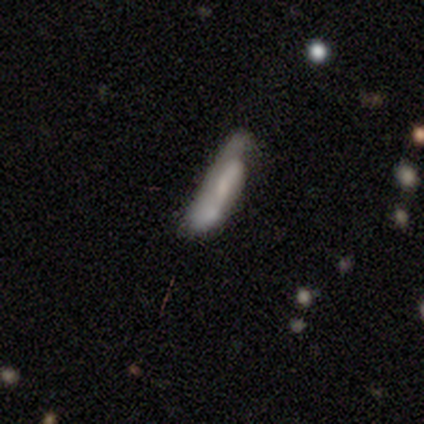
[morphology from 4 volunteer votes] Q: Smooth or featured?
A: smooth (75%); runner-up: featured or disk (25%)
Q: How rounded?
A: cigar-shaped (100%)
Q: Merging?
A: none (50%); tied with: merger (50%)